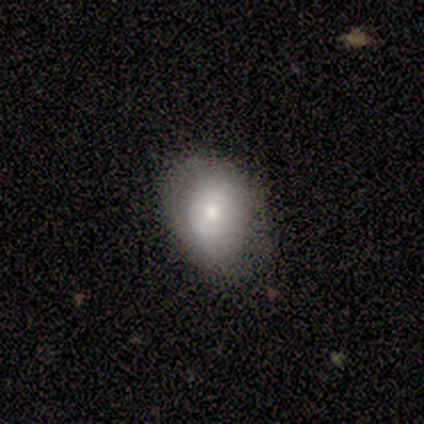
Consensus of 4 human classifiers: Smooth or featured? smooth (75%)
How rounded? in between (67%)
Merging? none (75%)